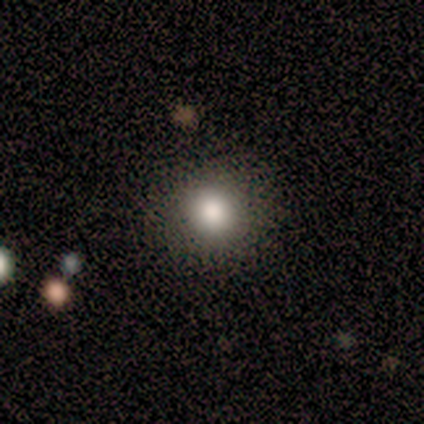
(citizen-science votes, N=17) A smooth galaxy with no disk features (82%) that is round (100%). Merging: none (94%).